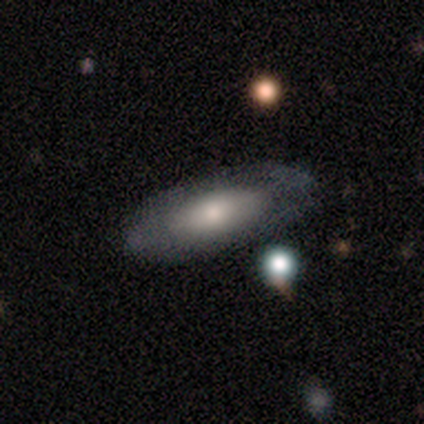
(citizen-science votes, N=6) Morphology: type=smooth (100%); roundness=in between (100%); merging=none (67%).